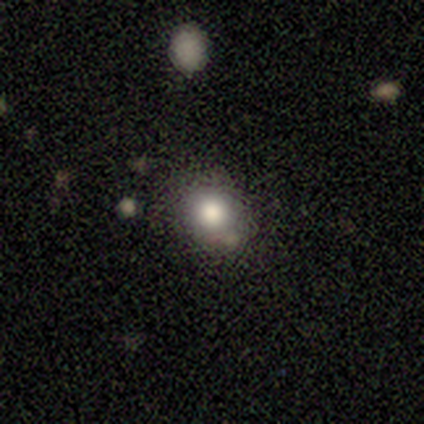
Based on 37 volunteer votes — smooth_or_featured: smooth (p=0.70) [alt: star or artifact p=0.16]
how_rounded: round (p=0.65) [alt: in between p=0.35]
merging: none (p=0.71) [alt: minor disturbance p=0.23]